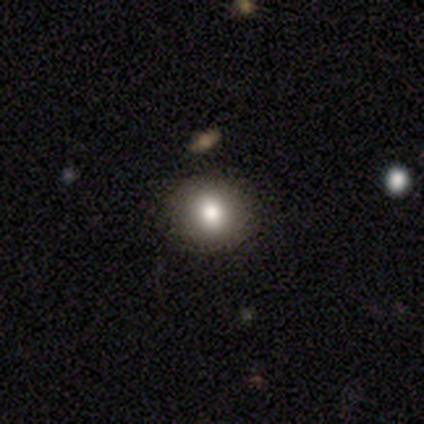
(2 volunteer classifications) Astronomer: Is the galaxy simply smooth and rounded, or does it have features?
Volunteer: smooth — 50%, tied with featured or disk at 50%.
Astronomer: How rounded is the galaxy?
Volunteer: round — 100%.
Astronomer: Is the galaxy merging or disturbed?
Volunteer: none — 50%, tied with minor disturbance at 50%.